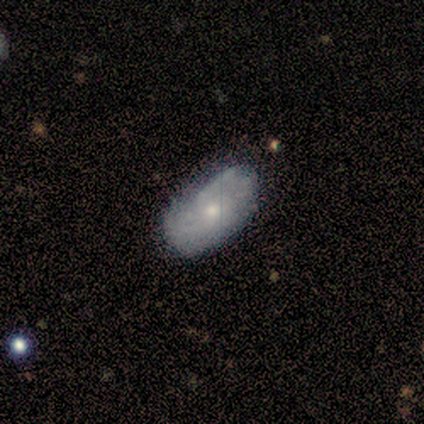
Smooth or featured? 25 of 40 (62%) said featured or disk. Edge-on disk? 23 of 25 (92%) said no. Bar? 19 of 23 (83%) said no. Spiral arms? 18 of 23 (78%) said yes. Spiral winding? 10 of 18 (56%) said tight. Spiral arm count? 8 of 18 (44%) said can't tell. Bulge size? 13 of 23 (57%) said small. Merging? 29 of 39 (74%) said none.